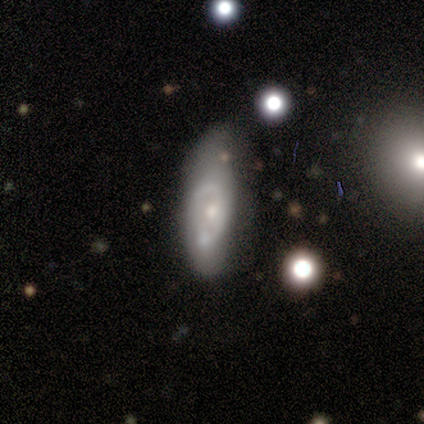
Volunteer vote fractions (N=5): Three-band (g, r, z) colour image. It shows a featured or disk galaxy (60%) with no bar (100%), no spiral arms (100%) and a small central bulge (100%). Merging: major disturbance (50%).